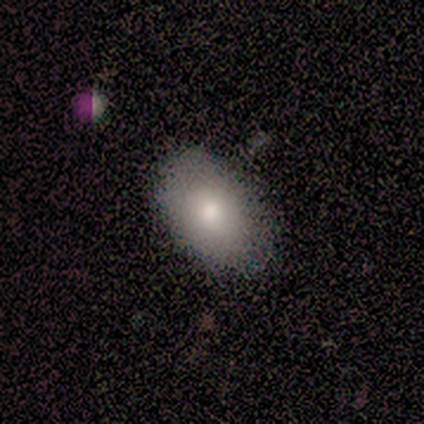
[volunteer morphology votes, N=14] Overall: smooth (93%). How rounded: in between (100%). Merging: none (71%).